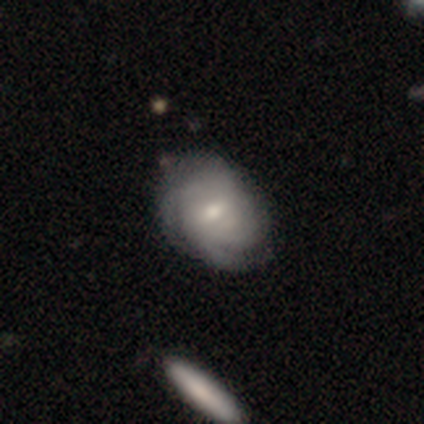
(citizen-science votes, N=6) smooth-or-featured: featured or disk: 83% | smooth: 17% | star or artifact: 0%
  disk-edge-on: no: 100% | yes: 0%
    bar: strong: 40% (tied) | weak: 40% (tied) | no: 20%
    has-spiral-arms: yes: 100% | no: 0%
      spiral-winding: medium: 60% | tight: 40% | loose: 0%
      spiral-arm-count: can't tell: 60% | 3: 20% | 4: 20% | 1: 0% | 2: 0% | more than 4: 0%
    bulge-size: small: 80% | large: 20% | dominant: 0% | moderate: 0% | none: 0%
  merging: none: 67% | major disturbance: 33% | minor disturbance: 0% | merger: 0%